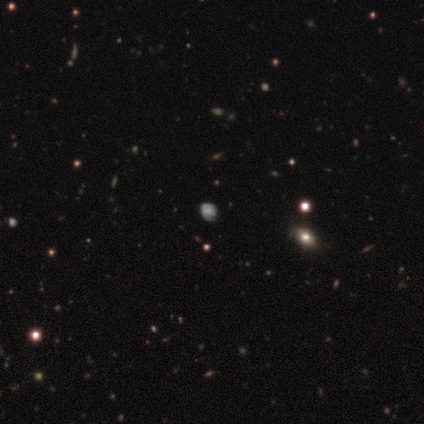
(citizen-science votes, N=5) Smooth or featured: star or artifact — 60% (smooth — 40%)